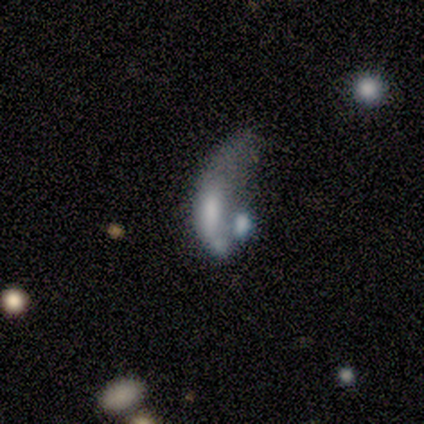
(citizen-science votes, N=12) Morphology: type=featured or disk (75%); edge-on=no (100%); bar=no (89%); spiral arms=no (89%); bulge=moderate (33%, tied with none); merging=major disturbance (45%, tied with merger).